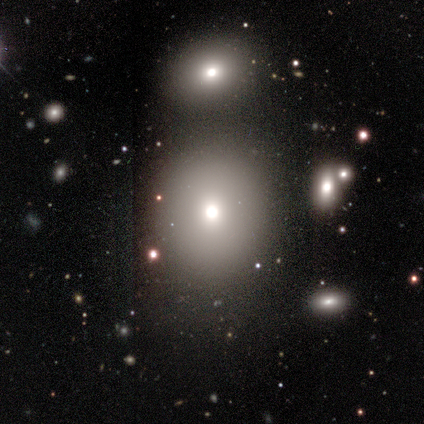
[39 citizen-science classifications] Smooth or featured? smooth (74%)
How rounded? round (86%)
Merging? none (68%)